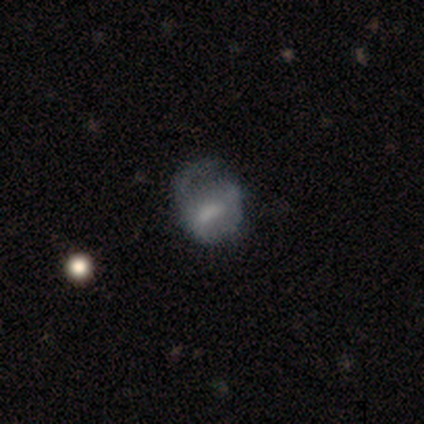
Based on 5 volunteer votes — smooth_or_featured: smooth (p=0.80) [alt: star or artifact p=0.20]
how_rounded: round (p=0.75) [alt: in between p=0.25]
merging: minor disturbance (p=0.50) [alt: none p=0.25]